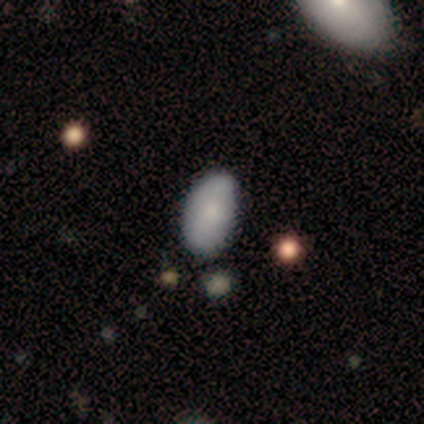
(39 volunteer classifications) Volunteers were most divided on "merging": none: 73%, minor disturbance: 18%, merger: 6%, major disturbance: 3%. More confident: how rounded — in between (83%); smooth or featured — smooth (74%).